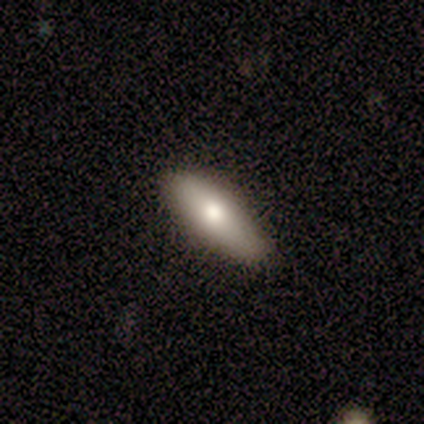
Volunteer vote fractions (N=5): Morphology: type=smooth (60%); roundness=in between (100%); merging=none (80%).